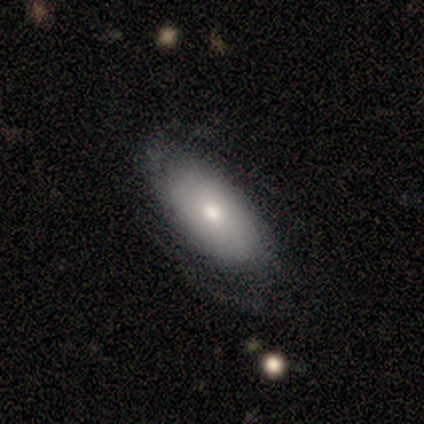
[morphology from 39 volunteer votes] This appears to be a smooth galaxy with no disk features (62%) that is in between round and cigar-shaped (83%). Merging: none (73%).